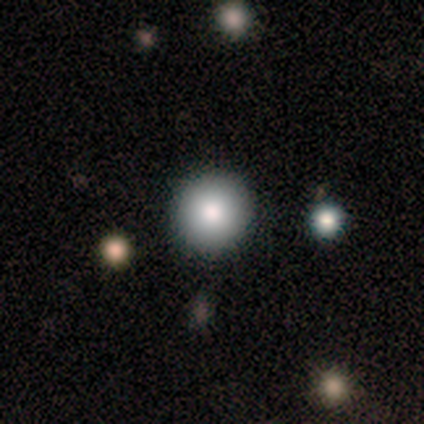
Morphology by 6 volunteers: A smooth galaxy with no disk features (100%) that is round (100%).

Vote fractions:
- Smooth or featured? smooth: 100% / featured or disk: 0% / star or artifact: 0%
- How rounded? round: 100% / in between: 0% / cigar-shaped: 0%
- Merging? none: 100% / minor disturbance: 0% / major disturbance: 0% / merger: 0%